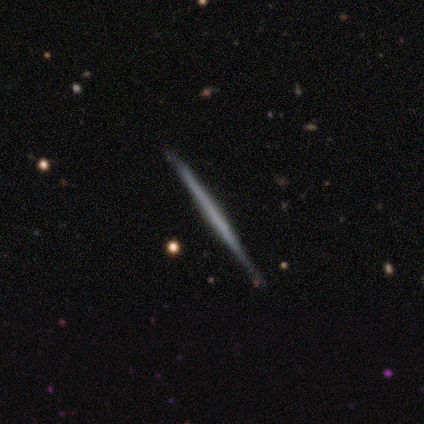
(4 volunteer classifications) Smooth or featured: featured or disk — 100%
Edge-on disk: yes — 100%
Edge-on bulge: none — 100%
Merging: none — 100%